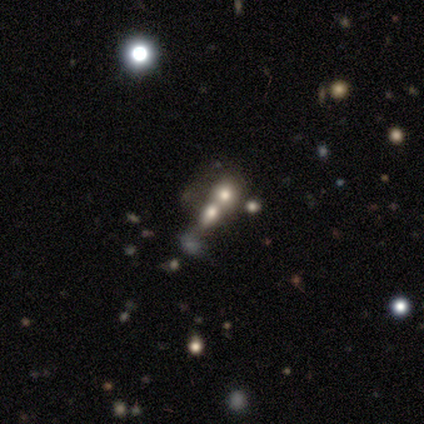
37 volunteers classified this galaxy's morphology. Overall: smooth (46%; star or artifact 38%). How rounded: in between (53%; round 47%). Merging: merger (87%).